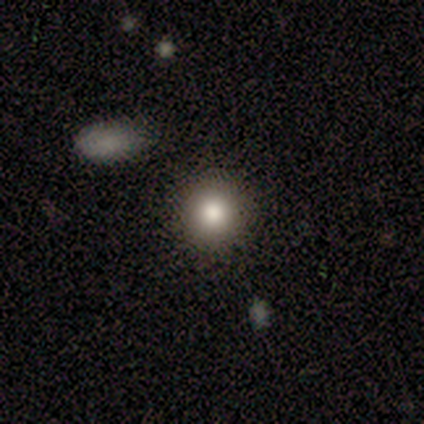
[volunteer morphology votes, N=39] Volunteers were most divided on "smooth or featured": smooth: 82%, star or artifact: 10%, featured or disk: 8%. More confident: merging — none (97%); how rounded — round (97%).